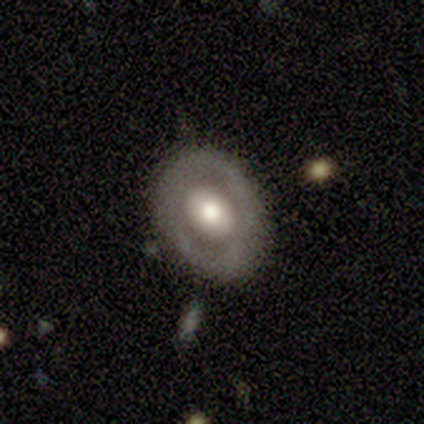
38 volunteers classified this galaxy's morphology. Smooth or featured?
  - smooth: 50% *
  - featured or disk: 39%
  - star or artifact: 11%
How rounded?
  - round: 53% *
  - in between: 47%
  - cigar-shaped: 0%
Merging?
  - none: 85% *
  - minor disturbance: 15%
  - major disturbance: 0%
  - merger: 0%